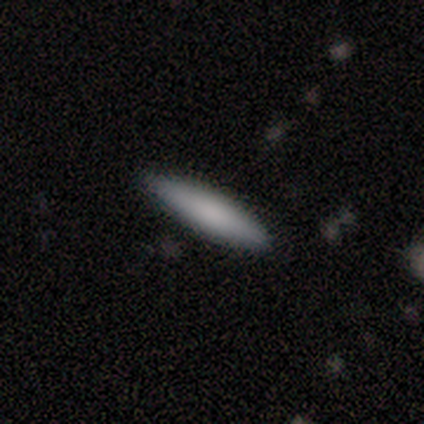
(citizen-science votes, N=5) This is likely a smooth galaxy (60%). How rounded: clearly cigar-shaped (100%). Merging: clearly none (100%).